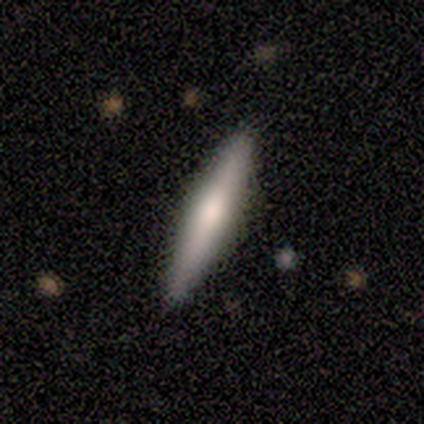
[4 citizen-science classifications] Smooth or featured?
  - smooth: 75% *
  - featured or disk: 25%
  - star or artifact: 0%
How rounded?
  - cigar-shaped: 100% *
  - round: 0%
  - in between: 0%
Merging?
  - none: 75% *
  - minor disturbance: 25%
  - major disturbance: 0%
  - merger: 0%